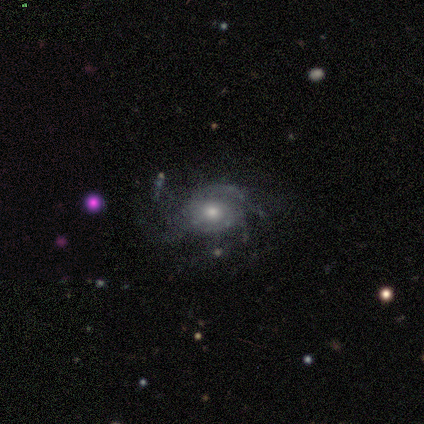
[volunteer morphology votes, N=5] A featured or disk galaxy (100%) with no bar (100%), medium (50%) spiral arms (80%) and a moderate central bulge (60%). Merging: none (80%).